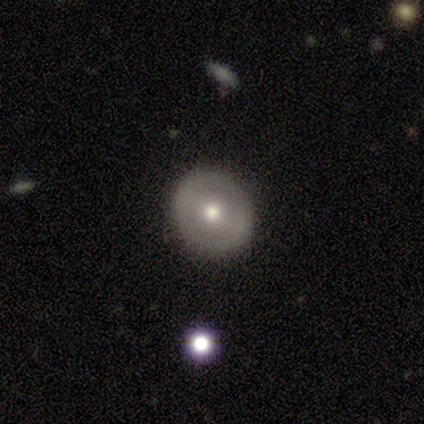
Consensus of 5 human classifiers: This appears to be a featured or disk galaxy (60%) with a strong bar (33%, tied with weak and no), no spiral arms (67%) and a moderate central bulge (100%). Merging: none (80%).